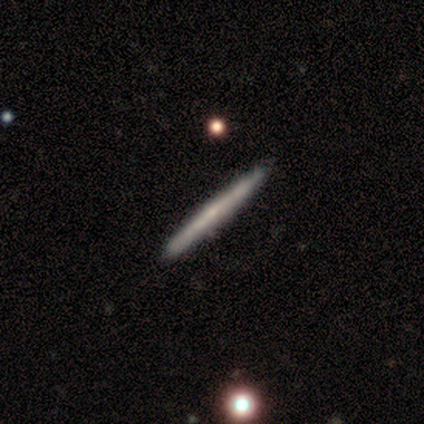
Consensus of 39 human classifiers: A featured or disk galaxy (72%) viewed edge-on (96%) with no central bulge (63%).

Vote fractions:
- Smooth or featured? featured or disk: 72% / smooth: 28% / star or artifact: 0%
- Edge-on disk? yes: 96% / no: 4%
- Edge-on bulge? none: 63% / rounded: 22% / boxy: 15%
- Merging? none: 59% / minor disturbance: 8% / merger: 5% / major disturbance: 3%